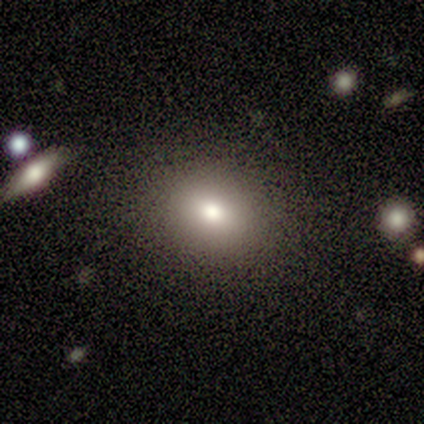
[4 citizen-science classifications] A featured or disk galaxy (50%) viewed edge-on (50%, tied with no) with a rounded central bulge (100%). Merging: none (67%).